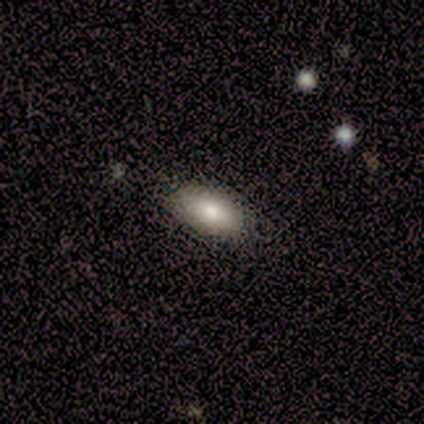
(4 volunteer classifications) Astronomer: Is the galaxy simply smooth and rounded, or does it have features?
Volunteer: smooth — 100%.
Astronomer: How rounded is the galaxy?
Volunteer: in between — 75%.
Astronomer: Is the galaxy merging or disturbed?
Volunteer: none — 100%.